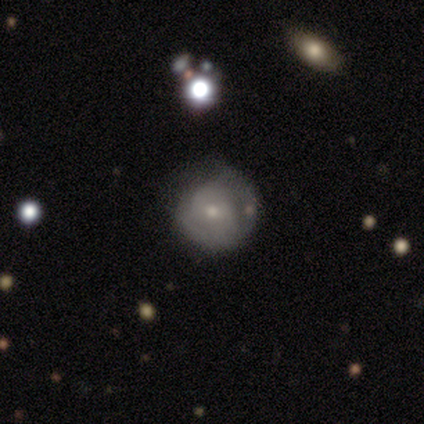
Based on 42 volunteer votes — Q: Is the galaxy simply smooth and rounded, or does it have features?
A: featured or disk — 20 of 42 (48%).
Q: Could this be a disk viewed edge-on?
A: no — 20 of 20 (100%).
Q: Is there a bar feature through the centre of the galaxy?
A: no — 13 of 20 (65%).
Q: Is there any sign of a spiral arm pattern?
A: yes — 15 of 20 (75%).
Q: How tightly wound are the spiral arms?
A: tight — 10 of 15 (67%).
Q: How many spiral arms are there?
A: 2 — 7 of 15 (47%).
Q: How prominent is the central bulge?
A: small — 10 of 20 (50%).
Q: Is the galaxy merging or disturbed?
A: none — 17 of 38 (45%).